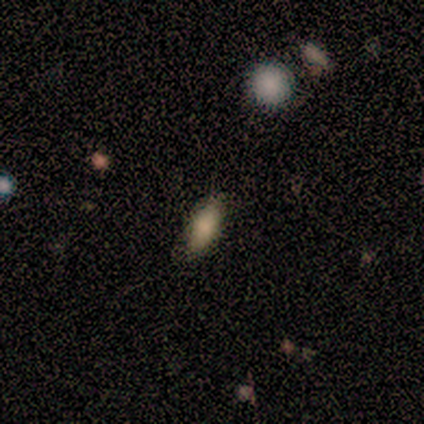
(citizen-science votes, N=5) smooth 80%, featured or disk 20%, star or artifact 0%. Down the decision tree: how rounded — in between (50%, tied with cigar-shaped); merging — none (100%).